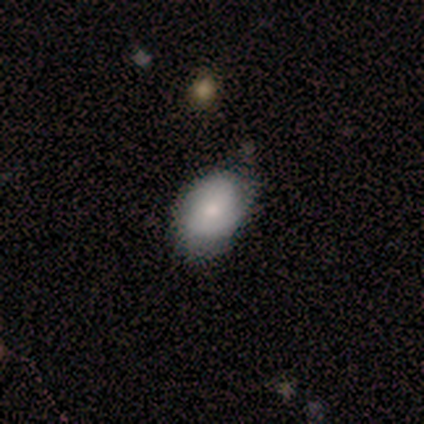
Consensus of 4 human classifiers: smooth-or-featured: smooth: 50% (tied) | featured or disk: 50% (tied) | star or artifact: 0%
  how-rounded: in between: 100% | round: 0% | cigar-shaped: 0%
  merging: none: 50% (tied) | minor disturbance: 50% (tied) | major disturbance: 0% | merger: 0%